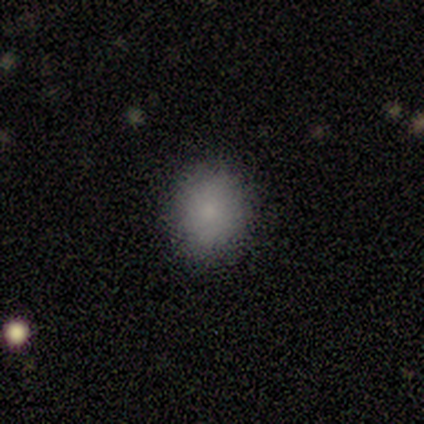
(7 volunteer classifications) Q: Smooth or featured?
A: smooth (86%); runner-up: featured or disk (14%)
Q: How rounded?
A: round (67%); runner-up: in between (33%)
Q: Merging?
A: none (86%); runner-up: merger (14%)